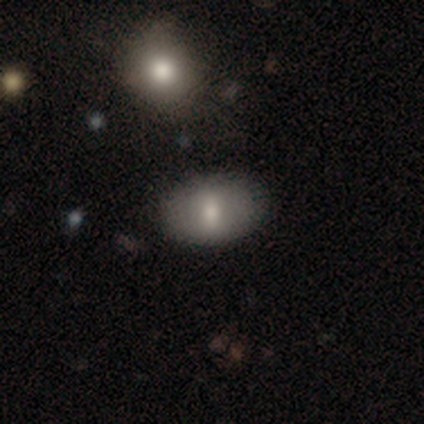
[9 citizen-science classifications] Smooth or featured? 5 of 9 (56%) said smooth. How rounded? 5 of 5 (100%) said in between. Merging? 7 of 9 (78%) said none.